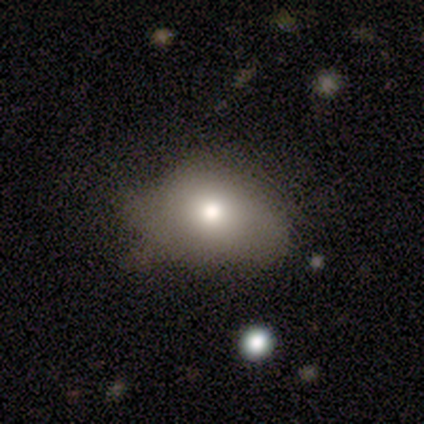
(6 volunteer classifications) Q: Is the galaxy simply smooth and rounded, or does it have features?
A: smooth — 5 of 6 (83%).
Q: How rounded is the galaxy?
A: in between — 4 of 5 (80%).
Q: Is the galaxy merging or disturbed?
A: none — 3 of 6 (50%, tied with minor disturbance).